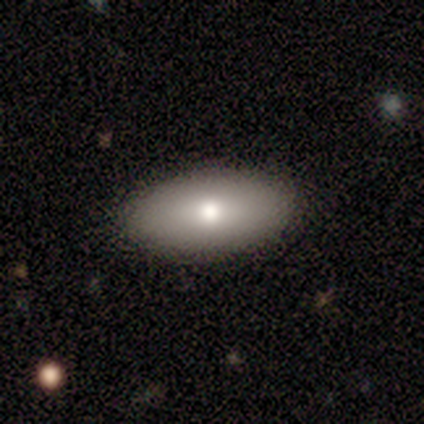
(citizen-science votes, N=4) smooth_or_featured: smooth (p=1.00)
how_rounded: in between (p=1.00)
merging: none (p=0.75) [alt: minor disturbance p=0.25]